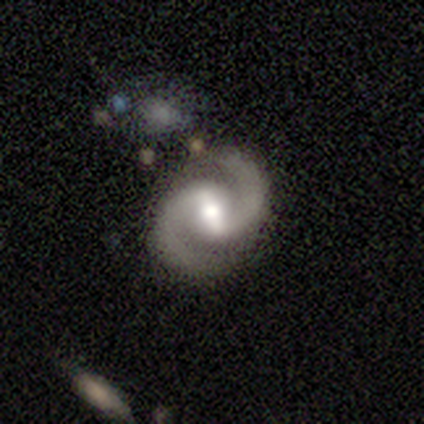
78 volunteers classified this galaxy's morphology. Volunteers were most divided on "bar": strong: 64%, weak: 35%, no: 1%. Remaining: edge-on disk — no (99%); spiral arms — yes (99%); spiral arm count — 2 (99%); smooth or featured — featured or disk (96%); bulge size — moderate (74%); spiral winding — medium (66%); merging — none (45%).